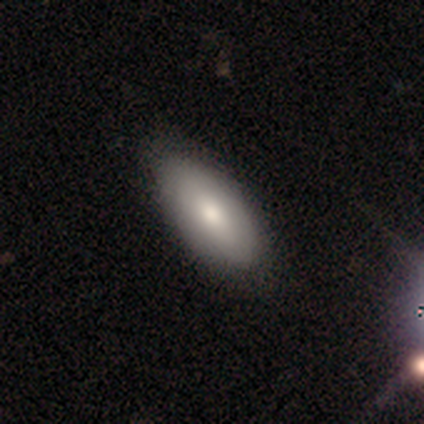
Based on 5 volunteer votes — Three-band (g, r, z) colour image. It shows a smooth galaxy with no disk features (100%) that is in between round and cigar-shaped (100%). Merging: none (80%).